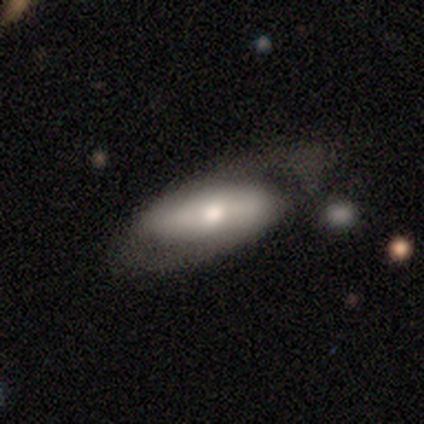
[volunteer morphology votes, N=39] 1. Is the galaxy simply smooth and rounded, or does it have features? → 51% featured or disk, 41% smooth, 8% star or artifact.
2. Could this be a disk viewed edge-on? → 80% no, 20% yes.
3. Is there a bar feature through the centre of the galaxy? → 44% strong, 31% no, 25% weak.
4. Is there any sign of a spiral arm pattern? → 75% yes, 25% no.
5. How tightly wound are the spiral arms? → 33% tight (tied), 33% medium (tied), 33% loose (tied).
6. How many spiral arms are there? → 50% 2, 42% 1, 8% can't tell, 0% 3, 0% 4, 0% more than 4.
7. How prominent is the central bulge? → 56% moderate, 19% large, 12% dominant, 12% small, 0% none.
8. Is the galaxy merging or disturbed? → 39% minor disturbance, 36% none, 22% major disturbance, 3% merger.